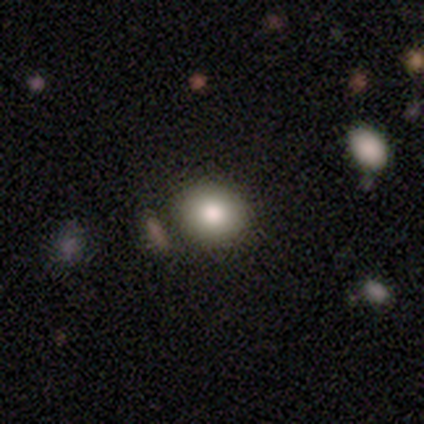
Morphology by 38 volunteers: Smooth or featured?
  - smooth: 87% *
  - featured or disk: 11%
  - star or artifact: 3%
How rounded?
  - round: 79% *
  - in between: 21%
  - cigar-shaped: 0%
Merging?
  - none: 89% *
  - minor disturbance: 11%
  - major disturbance: 0%
  - merger: 0%